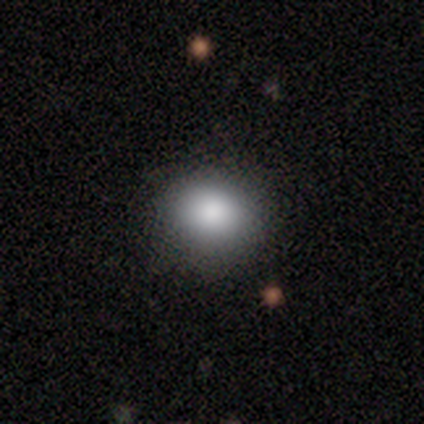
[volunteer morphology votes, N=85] smooth_or_featured: smooth (p=0.81) [alt: star or artifact p=0.14]
how_rounded: round (p=0.75) [alt: in between p=0.22]
merging: none (p=0.90) [alt: minor disturbance p=0.10]